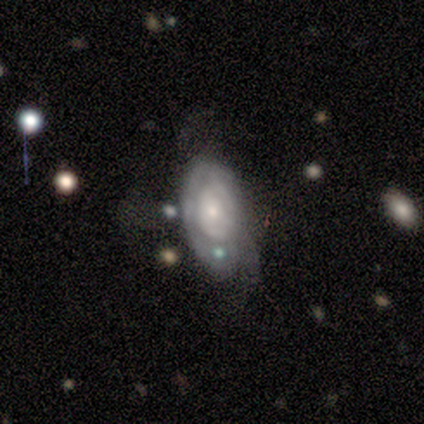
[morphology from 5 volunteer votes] smooth_or_featured: featured or disk (p=0.80) [alt: smooth p=0.20]
disk_edge_on: no (p=1.00)
bar: no (p=0.75) [alt: weak p=0.25]
has_spiral_arms: yes (p=0.75) [alt: no p=0.25]
spiral_winding: tight (p=0.67) [alt: loose p=0.33]
spiral_arm_count: can't tell (p=0.67) [alt: 3 p=0.33]
bulge_size: small (p=0.75) [alt: moderate p=0.25]
merging: none (p=0.60) [alt: minor disturbance p=0.20]